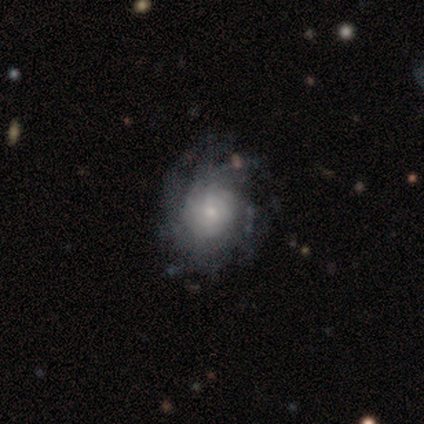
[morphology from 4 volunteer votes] Overall: featured or disk (75%). Edge-on disk: no (100%). Bar: no (100%). Spiral arms: yes (100%). Spiral arm count: can't tell (67%; 4 33%). Spiral winding: medium (67%; tight 33%). Bulge size: small (67%; moderate 33%). Merging: none (100%).